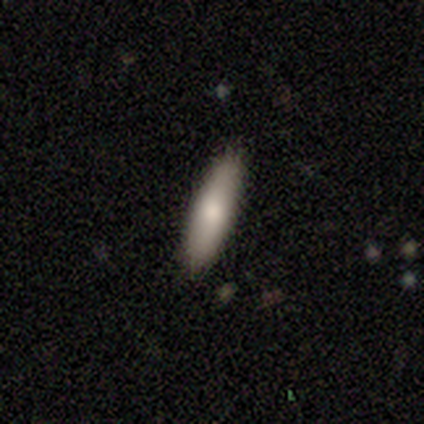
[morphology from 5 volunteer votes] smooth 80%, featured or disk 20%, star or artifact 0%. Down the decision tree: how rounded — cigar-shaped (75%); merging — none (100%).